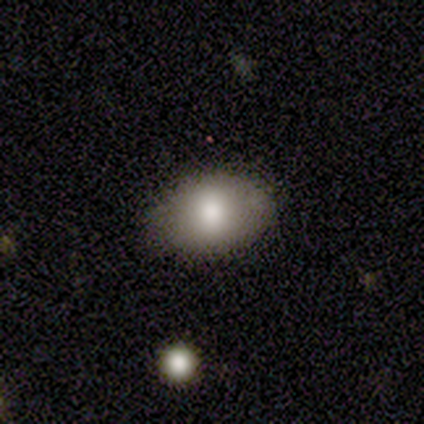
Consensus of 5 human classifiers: Overall: smooth (60%; featured or disk 20%). How rounded: in between (67%; round 33%). Merging: none (100%).